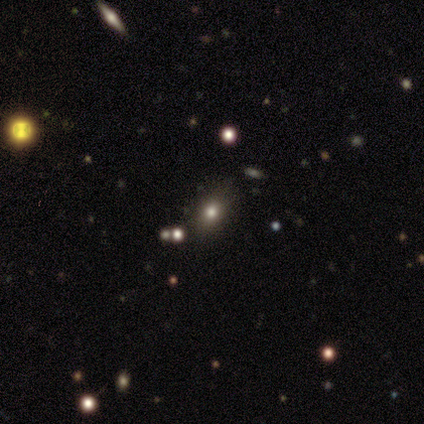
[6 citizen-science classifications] A smooth galaxy with no disk features (50%) that is in between round and cigar-shaped (100%).

Vote fractions:
- Smooth or featured? smooth: 50% / star or artifact: 33% / featured or disk: 17%
- How rounded? in between: 100% / round: 0% / cigar-shaped: 0%
- Merging? none: 75% / minor disturbance: 25% / major disturbance: 0% / merger: 0%